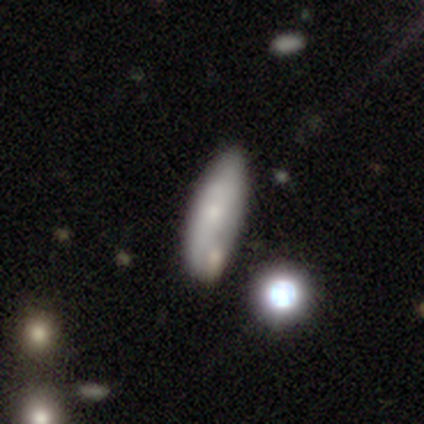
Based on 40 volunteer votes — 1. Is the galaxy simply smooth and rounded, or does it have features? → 50% smooth, 42% featured or disk, 8% star or artifact.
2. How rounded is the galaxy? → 75% in between, 25% cigar-shaped, 0% round.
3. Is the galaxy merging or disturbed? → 57% none, 16% merger, 8% minor disturbance, 0% major disturbance.